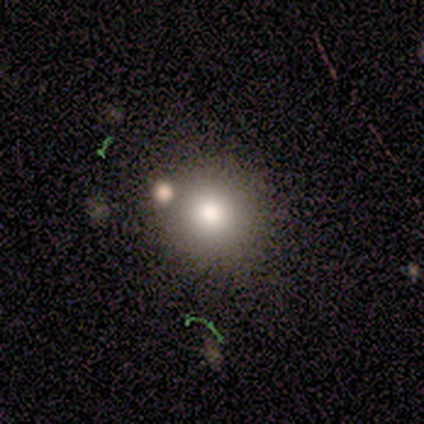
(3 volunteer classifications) This appears to be a smooth galaxy with no disk features (100%) that is round (100%). Merging: none (67%).